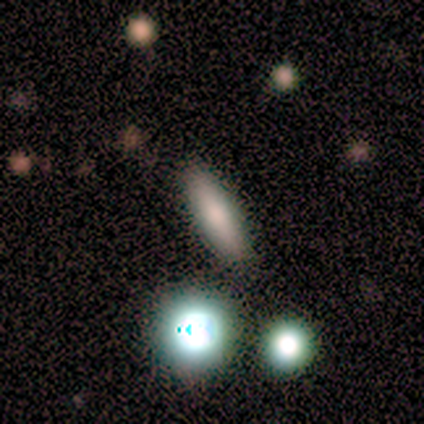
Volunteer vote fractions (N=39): Smooth or featured? smooth (74%)
How rounded? cigar-shaped (59%)
Merging? none (70%)